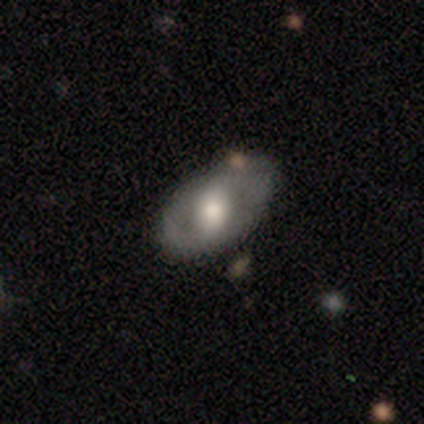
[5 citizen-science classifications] smooth_or_featured: featured or disk (p=1.00)
disk_edge_on: no (p=0.80) [alt: yes p=0.20]
bar: weak (p=0.50) [tied with: no p=0.50]
has_spiral_arms: yes (p=0.50) [tied with: no p=0.50]
spiral_winding: loose (p=1.00)
spiral_arm_count: 2 (p=1.00)
bulge_size: moderate (p=1.00)
merging: none (p=0.80) [alt: major disturbance p=0.20]